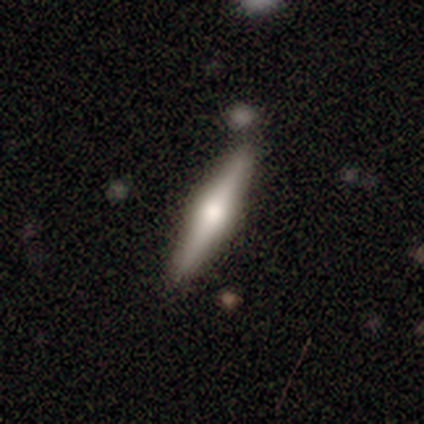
Volunteers were most divided on "smooth or featured": featured or disk: 80%, smooth: 20%, star or artifact: 0%. More confident: edge-on disk — yes (100%); edge-on bulge — rounded (100%); merging — none (100%).